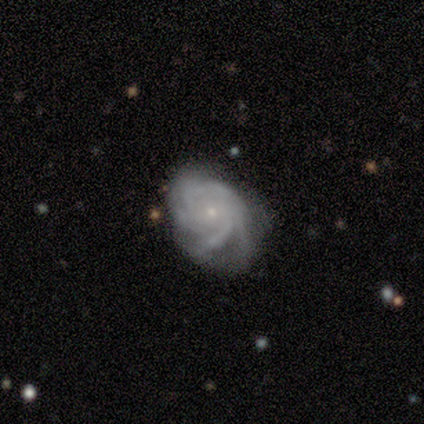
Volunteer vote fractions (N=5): Smooth or featured? featured or disk (100%)
Edge-on disk? no (100%)
Bar? no (100%)
Spiral arms? yes (100%)
Spiral winding? tight (80%)
Spiral arm count? more than 4 (80%)
Bulge size? small (100%)
Merging? none (60%)